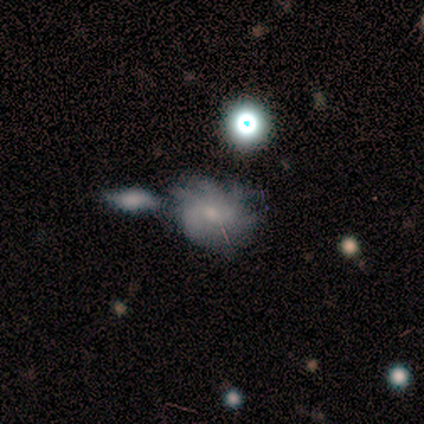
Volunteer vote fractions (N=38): smooth-or-featured: featured or disk: 63% | smooth: 26% | star or artifact: 11%
  disk-edge-on: no: 96% | yes: 4%
    bar: no: 87% | weak: 13% | strong: 0%
    has-spiral-arms: yes: 74% | no: 26%
      spiral-winding: medium: 59% | tight: 24% | loose: 18%
      spiral-arm-count: more than 4: 47% | can't tell: 29% | 4: 18% | 3: 6% | 1: 0% | 2: 0%
    bulge-size: small: 74% | moderate: 17% | none: 9% | dominant: 0% | large: 0%
  merging: none: 32% | major disturbance: 26% | minor disturbance: 21% | merger: 21%